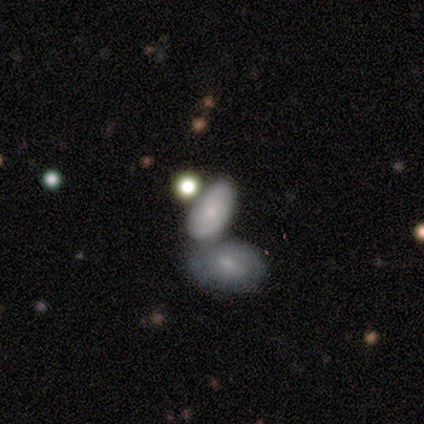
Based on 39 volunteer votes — Smooth or featured? smooth (59%)
How rounded? in between (96%)
Merging? merger (57%)